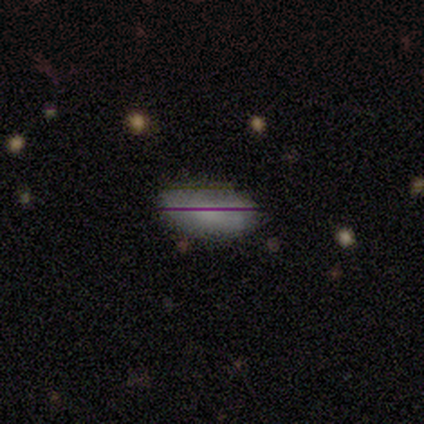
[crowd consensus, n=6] Q: Smooth or featured?
A: smooth (50%); runner-up: star or artifact (33%)
Q: How rounded?
A: in between (100%)
Q: Merging?
A: none (75%); runner-up: minor disturbance (25%)